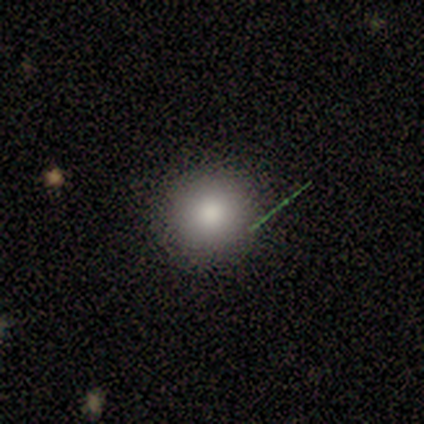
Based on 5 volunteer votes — smooth_or_featured: smooth (p=1.00)
how_rounded: round (p=1.00)
merging: none (p=1.00)